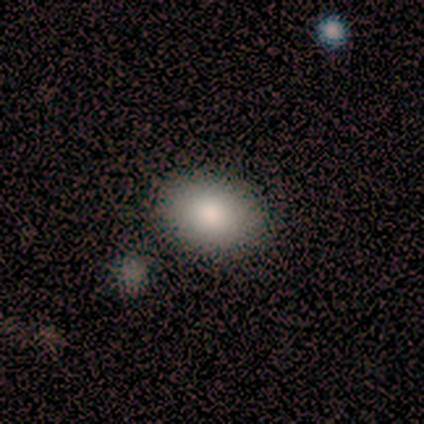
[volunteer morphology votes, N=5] A smooth galaxy with no disk features (80%) that is in between round and cigar-shaped (100%). Merging: none (100%).